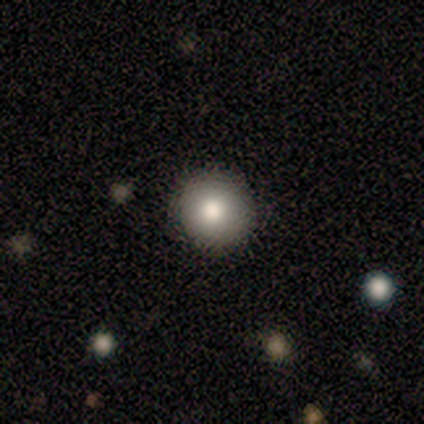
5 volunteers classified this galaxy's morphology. A smooth galaxy with no disk features (100%) that is round (100%). Merging: none (100%).